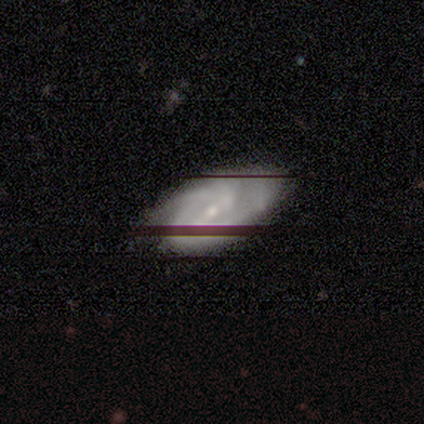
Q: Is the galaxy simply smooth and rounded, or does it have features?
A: featured or disk — 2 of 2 (100%).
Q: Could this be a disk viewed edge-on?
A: no — 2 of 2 (100%).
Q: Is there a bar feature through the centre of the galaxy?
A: weak — 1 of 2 (50%, tied with no).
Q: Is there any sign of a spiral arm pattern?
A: yes — 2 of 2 (100%).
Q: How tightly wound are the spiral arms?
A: tight — 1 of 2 (50%, tied with medium).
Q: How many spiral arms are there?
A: can't tell — 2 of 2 (100%).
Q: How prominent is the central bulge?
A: small — 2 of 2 (100%).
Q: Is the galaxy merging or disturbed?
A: none — 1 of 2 (50%, tied with minor disturbance).